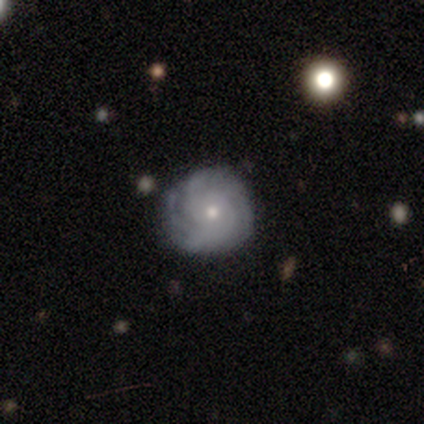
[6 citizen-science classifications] smooth_or_featured: featured or disk (p=0.83) [alt: smooth p=0.17]
disk_edge_on: no (p=1.00)
bar: no (p=1.00)
has_spiral_arms: yes (p=1.00)
spiral_winding: tight (p=0.80) [alt: medium p=0.20]
spiral_arm_count: 4 (p=0.40) [tied with: can't tell p=0.40]
bulge_size: small (p=0.60) [alt: moderate p=0.40]
merging: none (p=0.83) [alt: minor disturbance p=0.17]